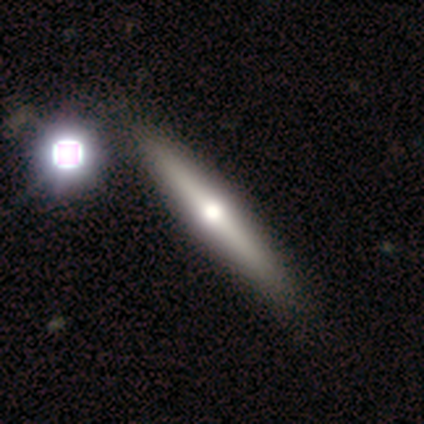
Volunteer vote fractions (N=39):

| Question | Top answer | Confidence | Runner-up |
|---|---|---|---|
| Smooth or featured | featured or disk | 62% | smooth (33%) |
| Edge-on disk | yes | 96% | no (4%) |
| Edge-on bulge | rounded | 100% | — |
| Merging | none | 73% | minor disturbance (5%) |